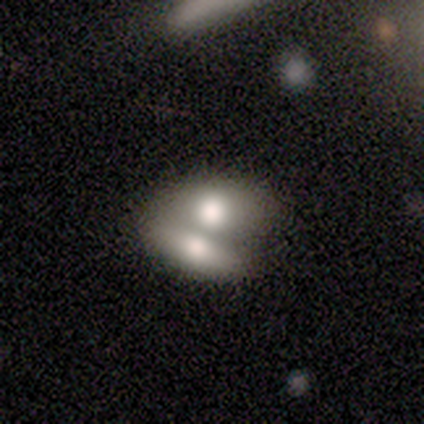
smooth-or-featured: featured or disk: 80% | smooth: 20% | star or artifact: 0%
  disk-edge-on: no: 75% | yes: 25%
    bar: no: 100% | strong: 0% | weak: 0%
    has-spiral-arms: no: 100% | yes: 0%
    bulge-size: large: 67% | moderate: 33% | dominant: 0% | small: 0% | none: 0%
  merging: merger: 100% | none: 0% | minor disturbance: 0% | major disturbance: 0%